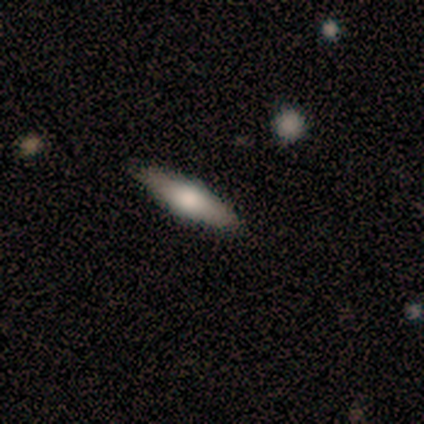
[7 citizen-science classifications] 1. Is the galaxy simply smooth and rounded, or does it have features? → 57% smooth, 43% featured or disk, 0% star or artifact.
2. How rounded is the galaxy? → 100% cigar-shaped, 0% round, 0% in between.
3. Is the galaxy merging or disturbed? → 100% none, 0% minor disturbance, 0% major disturbance, 0% merger.